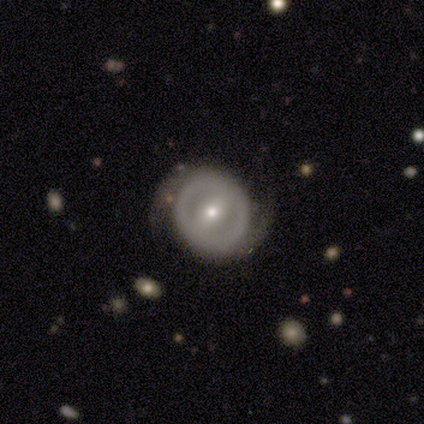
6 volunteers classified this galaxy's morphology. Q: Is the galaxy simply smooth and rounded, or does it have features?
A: featured or disk — 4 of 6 (67%).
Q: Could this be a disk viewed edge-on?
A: no — 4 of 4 (100%).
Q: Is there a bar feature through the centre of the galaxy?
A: weak — 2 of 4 (50%).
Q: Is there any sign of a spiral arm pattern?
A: yes — 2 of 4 (50%, tied with no).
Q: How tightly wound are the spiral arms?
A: tight — 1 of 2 (50%, tied with medium).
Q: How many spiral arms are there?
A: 2 — 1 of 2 (50%, tied with can't tell).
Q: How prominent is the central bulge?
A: small — 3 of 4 (75%).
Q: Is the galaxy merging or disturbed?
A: none — 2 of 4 (50%).